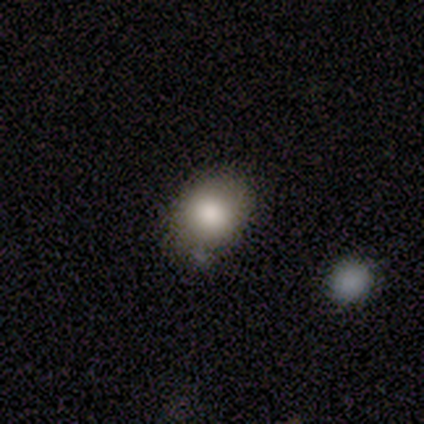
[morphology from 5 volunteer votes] A smooth galaxy with no disk features (80%) that is in between round and cigar-shaped (75%).

Vote fractions:
- Smooth or featured? smooth: 80% / star or artifact: 20% / featured or disk: 0%
- How rounded? in between: 75% / round: 25% / cigar-shaped: 0%
- Merging? none: 100% / minor disturbance: 0% / major disturbance: 0% / merger: 0%